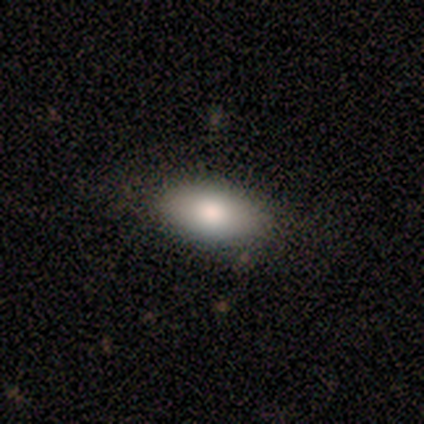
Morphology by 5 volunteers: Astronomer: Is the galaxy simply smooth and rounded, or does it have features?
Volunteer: smooth — 100%.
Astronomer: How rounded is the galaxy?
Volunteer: in between — 100%.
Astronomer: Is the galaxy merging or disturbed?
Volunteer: none — 100%.